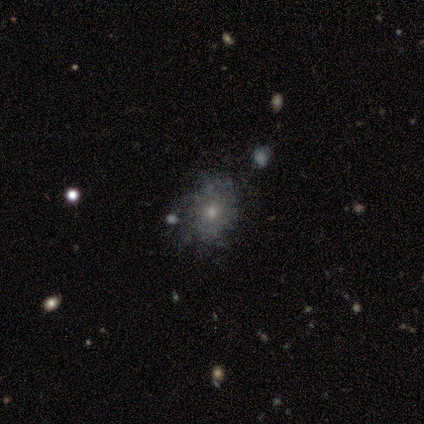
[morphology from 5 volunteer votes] A smooth galaxy with no disk features (40%, tied with featured or disk) that is round (100%). Merging: none (75%).